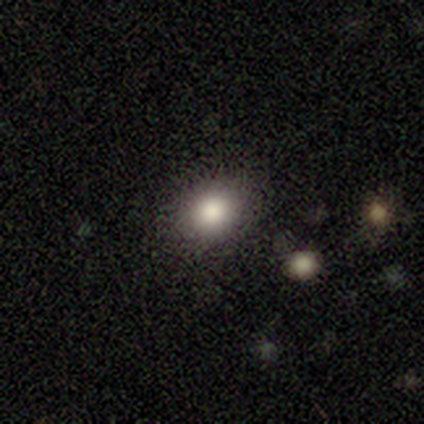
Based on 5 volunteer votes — Smooth or featured? 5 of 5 (100%) said smooth. How rounded? 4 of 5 (80%) said round. Merging? 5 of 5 (100%) said none.